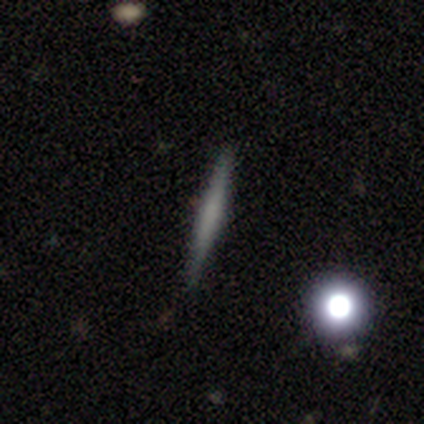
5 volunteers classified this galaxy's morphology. Smooth or featured? smooth (80%)
How rounded? cigar-shaped (100%)
Merging? none (80%)